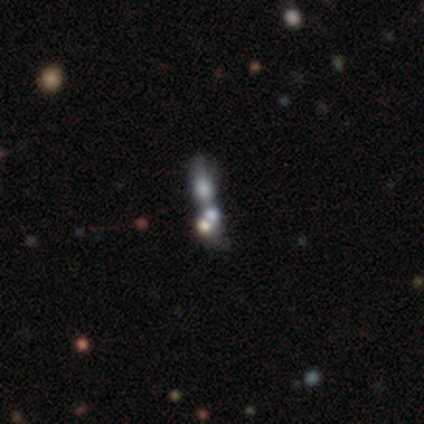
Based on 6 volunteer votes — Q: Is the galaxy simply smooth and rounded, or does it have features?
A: star or artifact — 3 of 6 (50%).